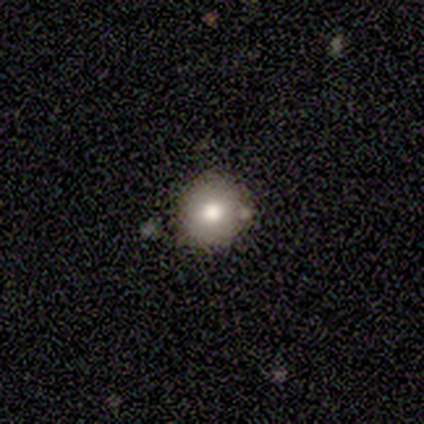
A smooth galaxy with no disk features (100%) that is round (100%). Merging: none (80%).